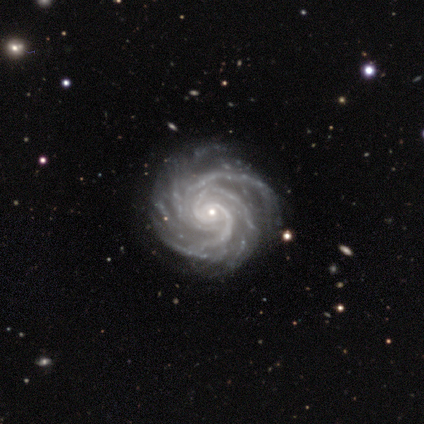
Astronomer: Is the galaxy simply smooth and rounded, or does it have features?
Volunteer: featured or disk — 98%.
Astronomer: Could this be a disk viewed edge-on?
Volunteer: no — 100%.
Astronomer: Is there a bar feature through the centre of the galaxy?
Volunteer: no — 64%.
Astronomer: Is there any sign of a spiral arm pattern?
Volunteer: yes — 100%.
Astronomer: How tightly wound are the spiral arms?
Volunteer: tight — 85%.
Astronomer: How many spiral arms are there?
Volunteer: more than 4 — 33% (runner-up: 4, 28%).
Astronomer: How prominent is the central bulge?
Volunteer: small — 87%.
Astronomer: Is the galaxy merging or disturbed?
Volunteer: none — 80%.